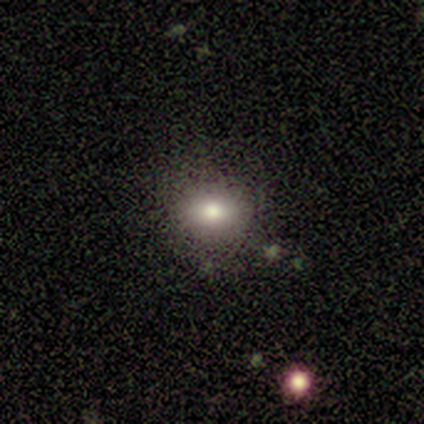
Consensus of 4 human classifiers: This appears to be a smooth galaxy with no disk features (100%) that is round (50%, tied with in between). Merging: none (75%).